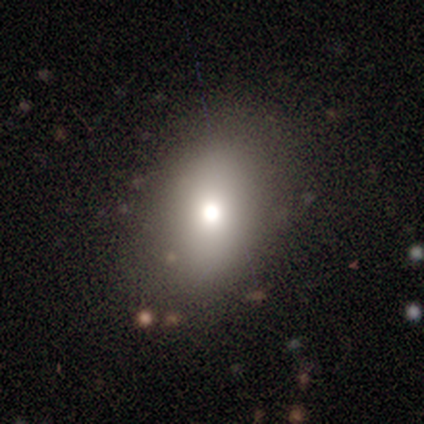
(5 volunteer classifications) This is likely a smooth galaxy (60%). How rounded: clearly in between (100%). Merging: clearly none (80%).